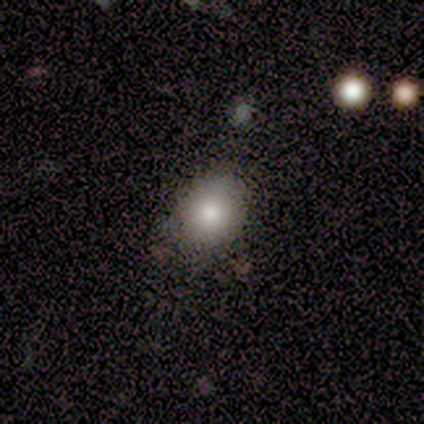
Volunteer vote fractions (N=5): This appears to be a smooth galaxy with no disk features (100%) that is in between round and cigar-shaped (60%). Merging: none (100%).